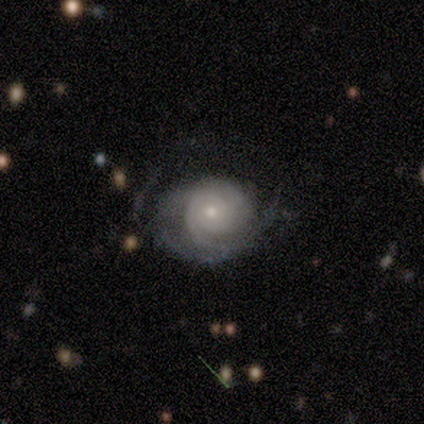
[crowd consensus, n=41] Q: Smooth or featured?
A: featured or disk (73%); runner-up: smooth (17%)
Q: Edge-on disk?
A: no (100%)
Q: Bar?
A: no (87%); runner-up: weak (13%)
Q: Spiral arms?
A: yes (93%); runner-up: no (7%)
Q: Spiral winding?
A: tight (82%); runner-up: medium (11%)
Q: Spiral arm count?
A: can't tell (39%); runner-up: 2 (29%)
Q: Bulge size?
A: small (73%); runner-up: moderate (23%)
Q: Merging?
A: major disturbance (41%); runner-up: none (35%)